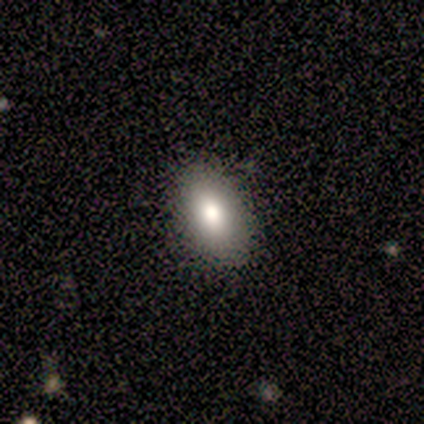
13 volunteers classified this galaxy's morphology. Q: Smooth or featured?
A: smooth (92%); runner-up: star or artifact (8%)
Q: How rounded?
A: in between (83%); runner-up: round (8%)
Q: Merging?
A: none (92%); runner-up: minor disturbance (8%)